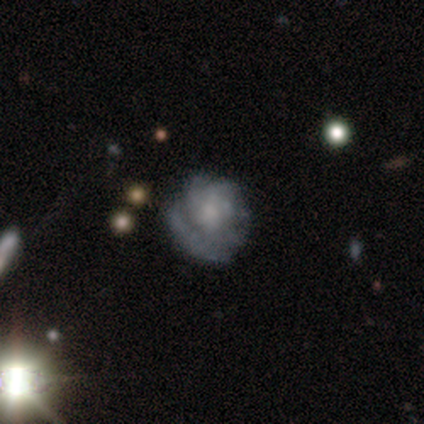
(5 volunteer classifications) smooth_or_featured: smooth (p=0.40) [tied with: featured or disk p=0.40]
how_rounded: round (p=0.50) [tied with: in between p=0.50]
merging: none (p=0.50) [alt: minor disturbance p=0.25]